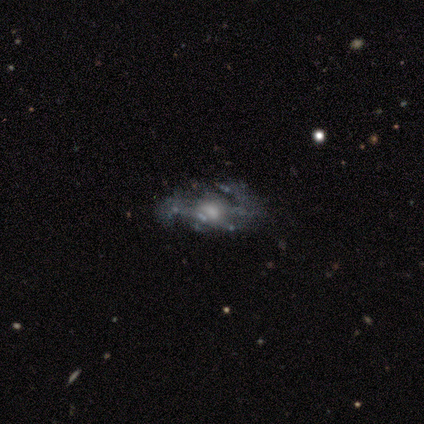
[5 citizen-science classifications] A featured or disk galaxy (60%) with a weak bar (67%), 2 (100%) loose (67%) spiral arms (100%) and a moderate central bulge (67%).

Vote fractions:
- Smooth or featured? featured or disk: 60% / star or artifact: 40% / smooth: 0%
- Edge-on disk? no: 100% / yes: 0%
- Bar? weak: 67% / no: 33% / strong: 0%
- Spiral arms? yes: 100% / no: 0%
- Spiral winding? loose: 67% / medium: 33% / tight: 0%
- Spiral arm count? 2: 100% / 1: 0% / 3: 0% / 4: 0% / more than 4: 0% / can't tell: 0%
- Bulge size? moderate: 67% / large: 33% / dominant: 0% / small: 0% / none: 0%
- Merging? major disturbance: 67% / none: 33% / minor disturbance: 0% / merger: 0%